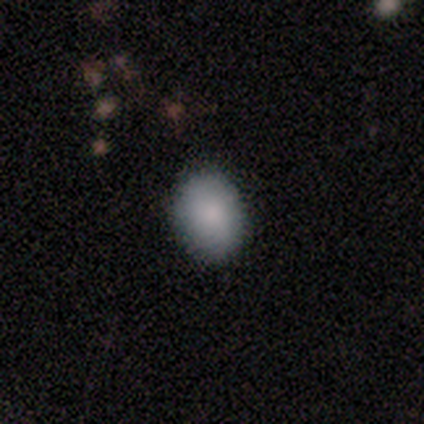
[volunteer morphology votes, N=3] Smooth or featured?
  - smooth: 100% *
  - featured or disk: 0%
  - star or artifact: 0%
How rounded?
  - in between: 100% *
  - round: 0%
  - cigar-shaped: 0%
Merging?
  - none: 100% *
  - minor disturbance: 0%
  - major disturbance: 0%
  - merger: 0%